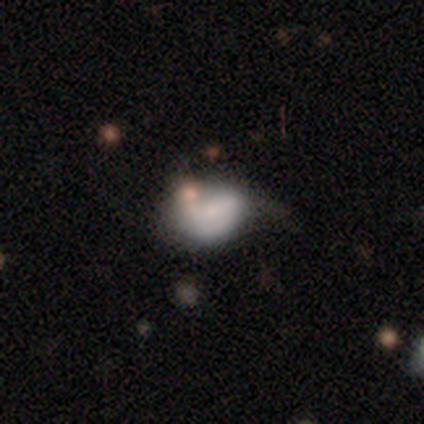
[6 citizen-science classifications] This is clearly a smooth galaxy (83%). How rounded: clearly in between (100%). Merging: possibly none (50%).